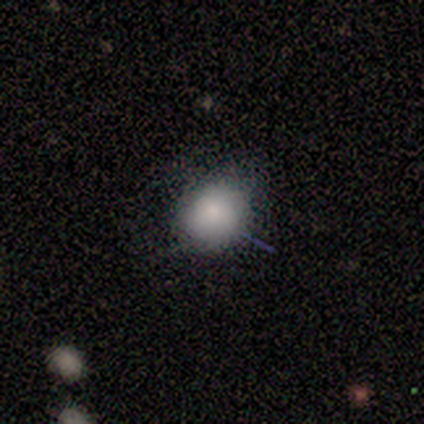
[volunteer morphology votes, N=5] smooth 80%, star or artifact 20%, featured or disk 0%. Down the decision tree: how rounded — round (75%); merging — none (75%).